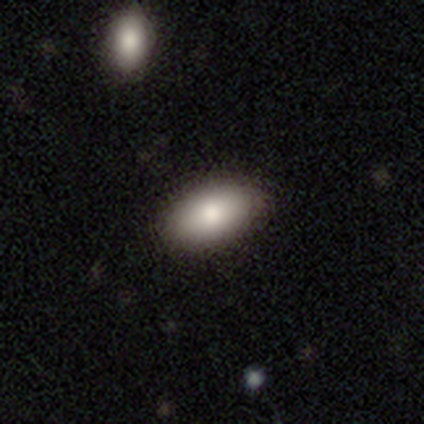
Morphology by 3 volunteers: smooth-or-featured: smooth: 67% | featured or disk: 33% | star or artifact: 0%
  how-rounded: in between: 100% | round: 0% | cigar-shaped: 0%
  merging: none: 67% | minor disturbance: 33% | major disturbance: 0% | merger: 0%